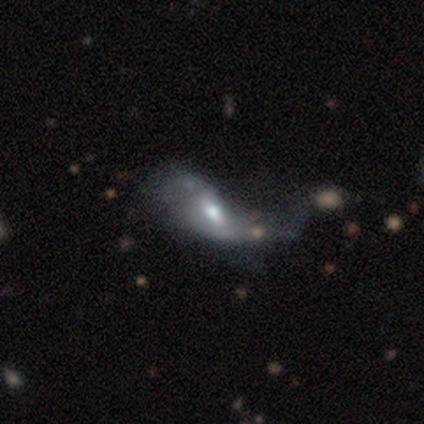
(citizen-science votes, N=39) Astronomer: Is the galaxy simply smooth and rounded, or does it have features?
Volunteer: featured or disk — 72%.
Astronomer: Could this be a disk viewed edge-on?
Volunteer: no — 89%.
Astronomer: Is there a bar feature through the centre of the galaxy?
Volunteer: weak — 48% (runner-up: no, 28%).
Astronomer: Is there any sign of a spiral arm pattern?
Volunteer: yes — 52% (runner-up: no, 48%).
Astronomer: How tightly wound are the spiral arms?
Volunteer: loose — 92%.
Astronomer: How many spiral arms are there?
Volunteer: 2 — 69%.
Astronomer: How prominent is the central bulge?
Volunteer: moderate — 56%.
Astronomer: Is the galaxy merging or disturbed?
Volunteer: major disturbance — 41% (runner-up: merger, 19%).